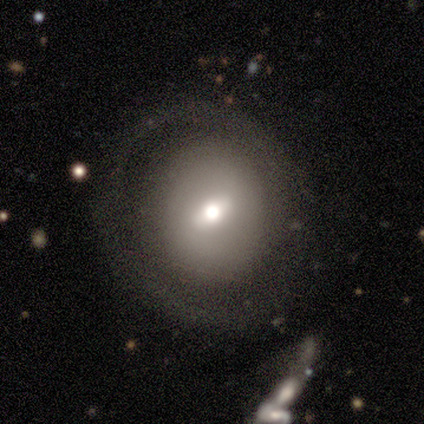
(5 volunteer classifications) Morphology: type=featured or disk (60%); edge-on=no (100%); bar=weak (67%); spiral arms=no (67%); bulge=moderate (100%); merging=none (80%).